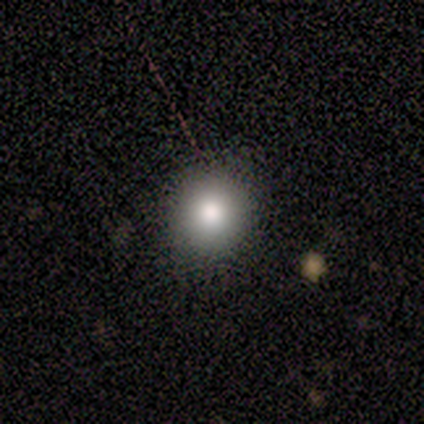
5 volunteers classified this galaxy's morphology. smooth 100%, featured or disk 0%, star or artifact 0%. Down the decision tree: how rounded — round (80%); merging — none (100%).